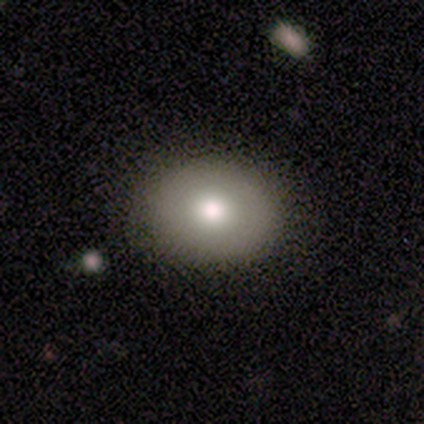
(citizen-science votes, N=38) A smooth galaxy with no disk features (79%) that is round (57%).

Vote fractions:
- Smooth or featured? smooth: 79% / featured or disk: 11% / star or artifact: 11%
- How rounded? round: 57% / in between: 43% / cigar-shaped: 0%
- Merging? none: 79% / minor disturbance: 9% / major disturbance: 6% / merger: 6%